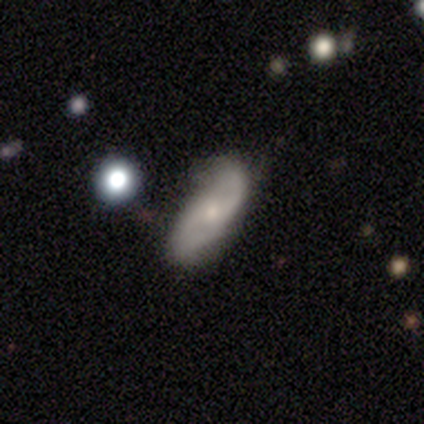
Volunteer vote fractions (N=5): This is clearly a featured or disk galaxy (80%). It is likely not viewed edge-on (75%). Bar: likely no (67%). Spiral arm pattern: clearly yes (100%). Spiral arm count: clearly 2 (100%). Spiral winding: likely tight (67%). Central bulge: clearly small (100%). Merging: clearly none (100%).